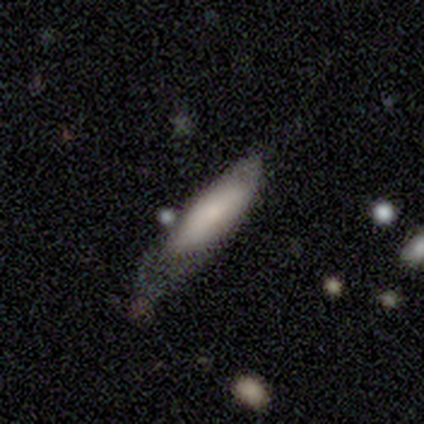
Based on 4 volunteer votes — Smooth or featured? smooth (75%)
How rounded? in between (100%)
Merging? minor disturbance (50%)